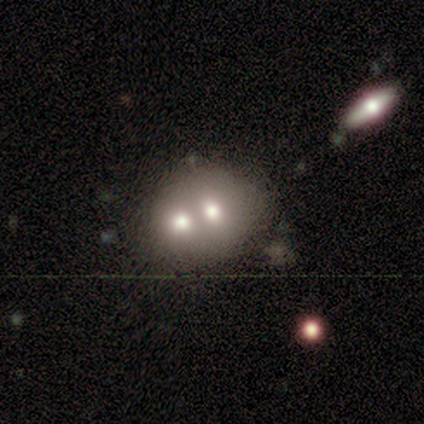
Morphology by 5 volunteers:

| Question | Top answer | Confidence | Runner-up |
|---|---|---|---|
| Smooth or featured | smooth | 60% | featured or disk (40%) |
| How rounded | in between | 67% | round (33%) |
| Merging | merger | 80% | none (20%) |